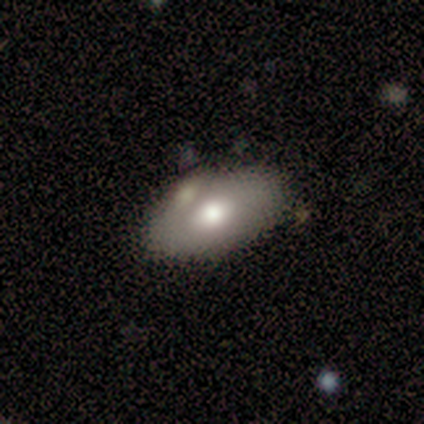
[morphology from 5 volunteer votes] Smooth or featured: smooth — 60% (featured or disk — 20%)
How rounded: in between — 100%
Merging: none — 50% (tied with merger — 50%)